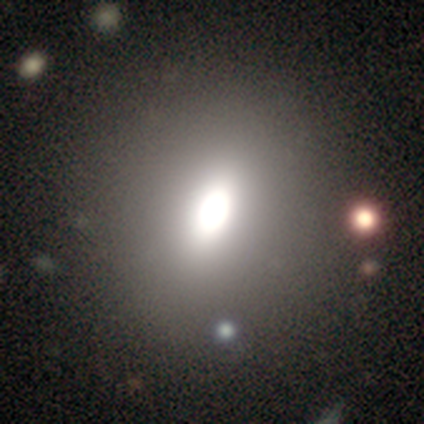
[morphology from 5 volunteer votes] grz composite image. It shows a smooth galaxy with no disk features (60%) that is in between round and cigar-shaped (100%). Merging: none (100%).